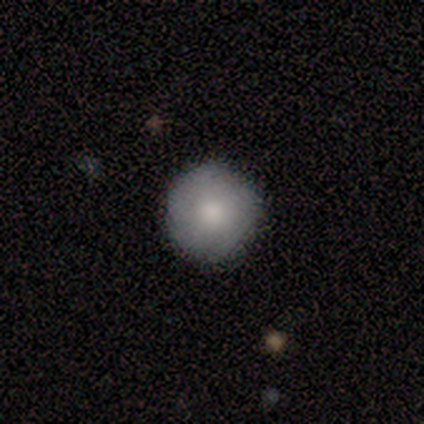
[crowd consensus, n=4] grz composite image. It shows a smooth galaxy with no disk features (100%) that is round (100%). Merging: none (100%).